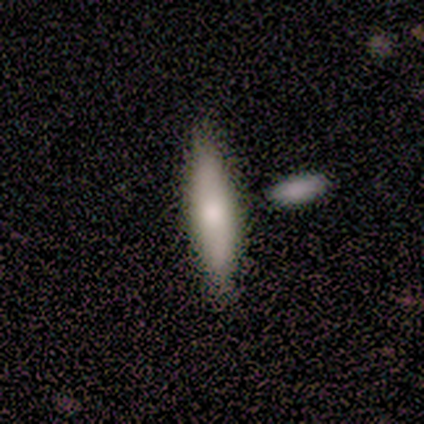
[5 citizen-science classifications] A smooth galaxy with no disk features (80%) that is in between round and cigar-shaped (50%, tied with cigar-shaped). Merging: none (100%).